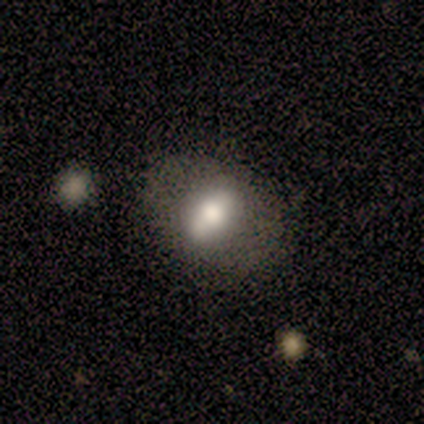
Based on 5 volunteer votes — Overall: smooth (60%; featured or disk 20%). How rounded: in between (100%). Merging: none (75%).